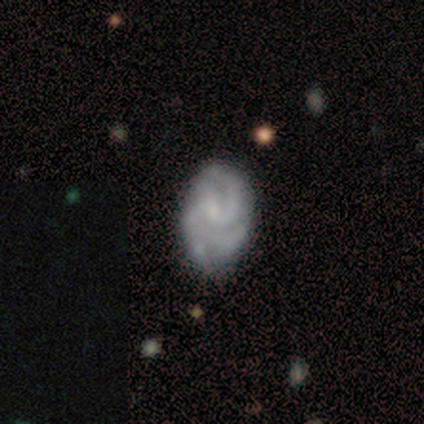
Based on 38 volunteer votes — Morphology: type=featured or disk (76%); edge-on=no (100%); bar=no (90%); spiral arms=yes (83%); winding=tight (62%); arm count=can't tell (38%); bulge=small (48%); merging=none (68%).